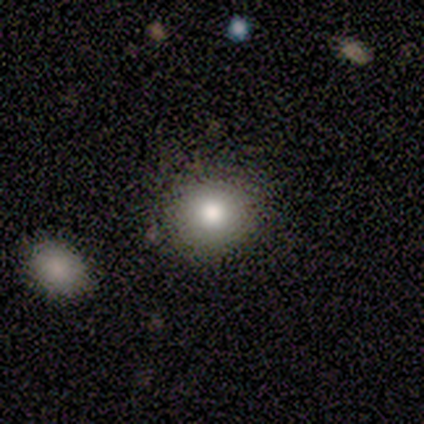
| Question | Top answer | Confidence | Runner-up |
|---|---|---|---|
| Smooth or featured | smooth | 80% | star or artifact (20%) |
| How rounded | round | 75% | in between (25%) |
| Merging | none | 100% | — |